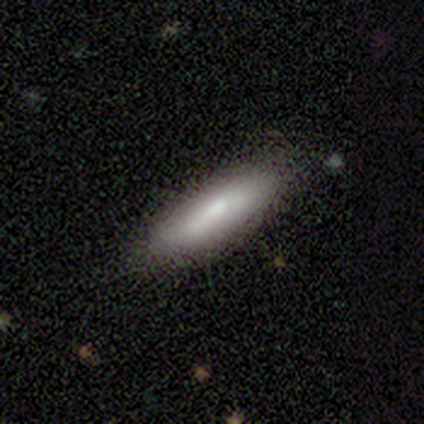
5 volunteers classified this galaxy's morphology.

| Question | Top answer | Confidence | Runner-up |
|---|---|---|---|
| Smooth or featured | smooth | 60% | featured or disk (20%) |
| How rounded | cigar-shaped | 100% | — |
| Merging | none | 75% | minor disturbance (25%) |